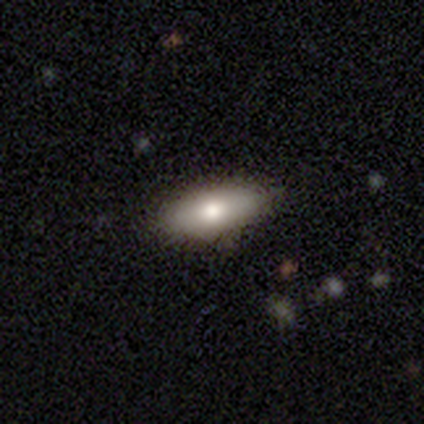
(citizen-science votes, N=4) A smooth galaxy with no disk features (100%) that is in between round and cigar-shaped (50%, tied with cigar-shaped).

Vote fractions:
- Smooth or featured? smooth: 100% / featured or disk: 0% / star or artifact: 0%
- How rounded? in between: 50% (tied) / cigar-shaped: 50% (tied) / round: 0%
- Merging? minor disturbance: 75% / none: 25% / major disturbance: 0% / merger: 0%